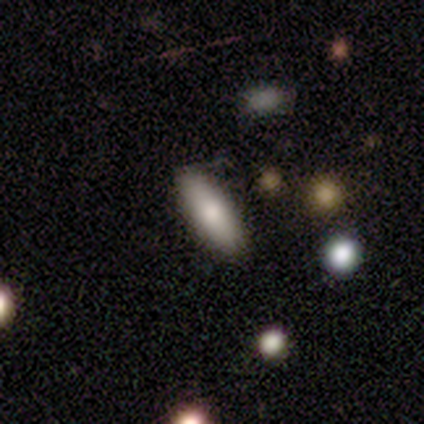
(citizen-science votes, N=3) A smooth galaxy with no disk features (100%) that is in between round and cigar-shaped (67%). Merging: none (100%).